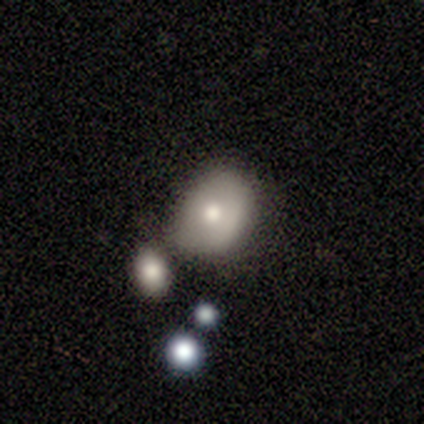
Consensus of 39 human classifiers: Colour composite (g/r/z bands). It shows a smooth galaxy with no disk features (69%) that is round (70%). Merging: none (49%).